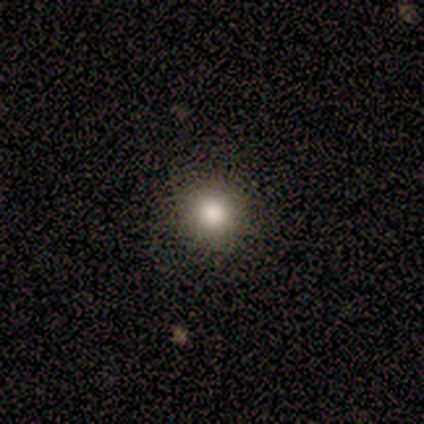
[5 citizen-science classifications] Smooth or featured? smooth (100%)
How rounded? round (100%)
Merging? none (100%)